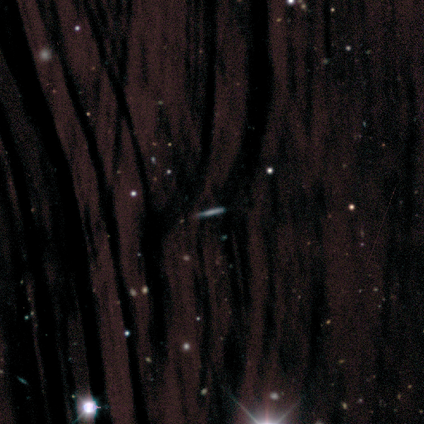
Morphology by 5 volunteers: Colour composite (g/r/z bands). It shows a star or artifact, not a galaxy (60%).